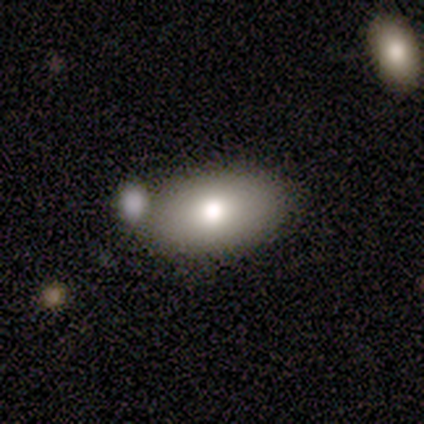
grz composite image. It shows a smooth galaxy with no disk features (72%) that is in between round and cigar-shaped (86%). Merging: none (69%).